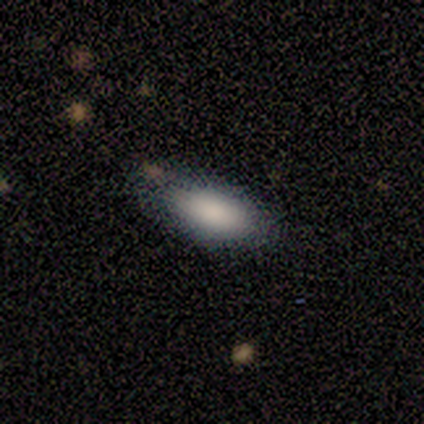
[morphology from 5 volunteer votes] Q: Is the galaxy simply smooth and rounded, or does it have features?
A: smooth — 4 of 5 (80%).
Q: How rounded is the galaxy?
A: in between — 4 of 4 (100%).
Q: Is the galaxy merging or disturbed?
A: none — 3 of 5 (60%).